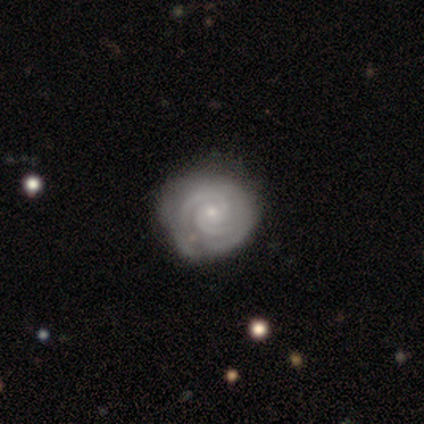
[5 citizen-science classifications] featured or disk 100%, smooth 0%, star or artifact 0%. Down the decision tree: edge-on disk — no (100%); bar — no (100%); spiral arms — yes (100%); spiral arm count — 2 (100%); spiral winding — tight (100%); bulge size — small (80%); merging — none (40%, tied with major disturbance).